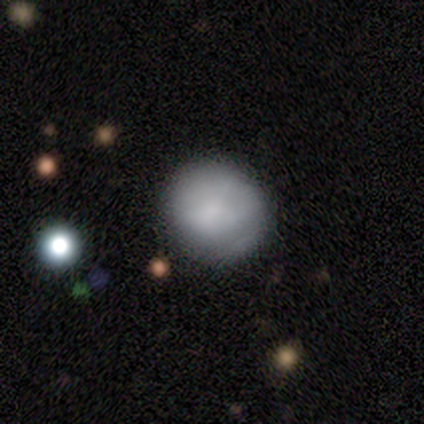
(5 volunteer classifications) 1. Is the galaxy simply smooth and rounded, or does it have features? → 100% smooth, 0% featured or disk, 0% star or artifact.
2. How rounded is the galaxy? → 100% round, 0% in between, 0% cigar-shaped.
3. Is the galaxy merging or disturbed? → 100% none, 0% minor disturbance, 0% major disturbance, 0% merger.